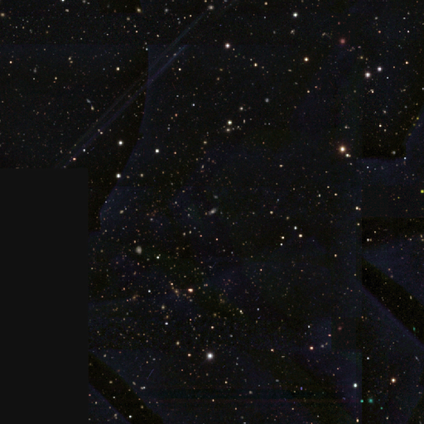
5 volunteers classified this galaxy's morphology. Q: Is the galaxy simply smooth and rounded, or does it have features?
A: star or artifact — 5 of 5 (100%).